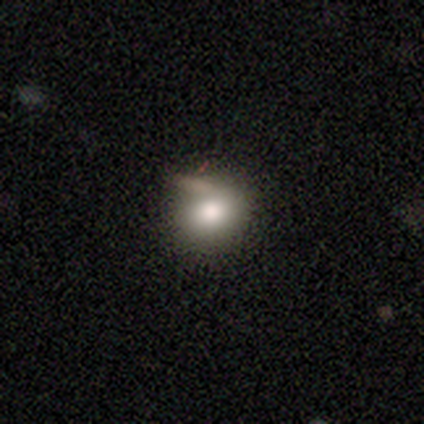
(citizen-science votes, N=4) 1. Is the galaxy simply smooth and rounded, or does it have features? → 100% smooth, 0% featured or disk, 0% star or artifact.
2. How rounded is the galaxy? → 75% round, 25% in between, 0% cigar-shaped.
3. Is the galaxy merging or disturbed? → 50% minor disturbance, 25% none, 25% major disturbance, 0% merger.